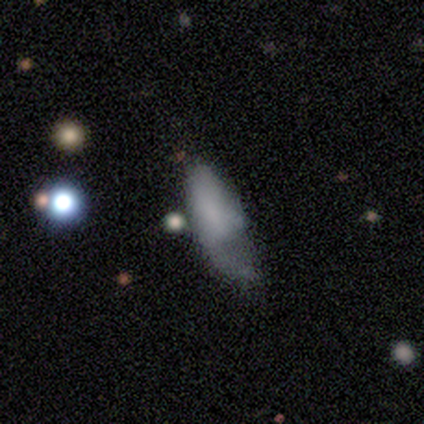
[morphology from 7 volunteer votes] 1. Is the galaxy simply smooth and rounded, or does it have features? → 57% featured or disk, 29% smooth, 14% star or artifact.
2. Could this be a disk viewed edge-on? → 100% no, 0% yes.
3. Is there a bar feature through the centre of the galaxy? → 75% no, 25% weak, 0% strong.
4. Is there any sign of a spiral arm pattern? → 50% yes (tied), 50% no (tied).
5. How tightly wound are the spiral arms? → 50% tight (tied), 50% loose (tied), 0% medium.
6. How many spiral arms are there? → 100% 1, 0% 2, 0% 3, 0% 4, 0% more than 4, 0% can't tell.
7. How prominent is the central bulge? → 75% none, 25% small, 0% dominant, 0% large, 0% moderate.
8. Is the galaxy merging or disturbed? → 50% major disturbance, 33% minor disturbance, 17% none, 0% merger.